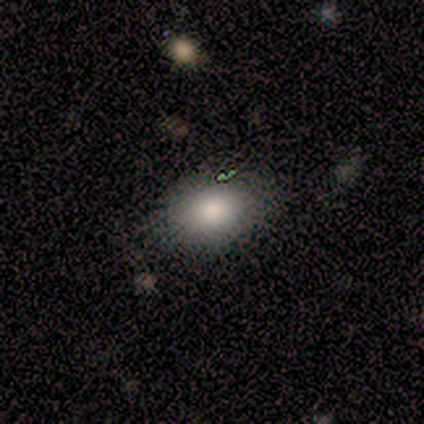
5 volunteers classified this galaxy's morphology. Smooth or featured? smooth (100%)
How rounded? in between (80%)
Merging? none (80%)